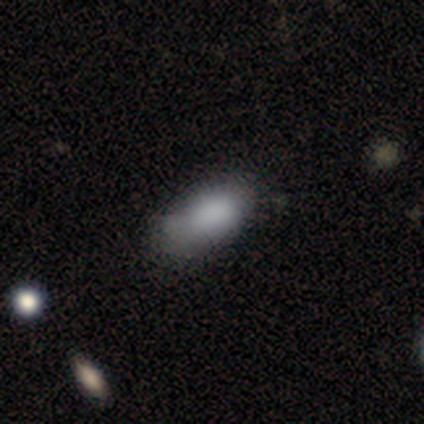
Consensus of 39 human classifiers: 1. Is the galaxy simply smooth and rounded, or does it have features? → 87% smooth, 13% featured or disk, 0% star or artifact.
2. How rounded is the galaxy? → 91% in between, 9% round, 0% cigar-shaped.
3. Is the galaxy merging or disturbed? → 51% none, 44% minor disturbance, 5% major disturbance, 0% merger.